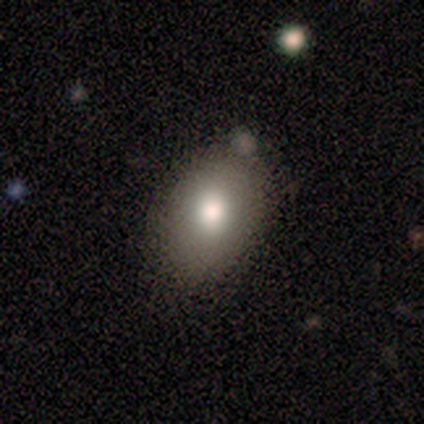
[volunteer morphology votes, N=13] Volunteers were most divided on "merging": none: 83%, minor disturbance: 17%, major disturbance: 0%, merger: 0%. More confident: smooth or featured — smooth (92%); how rounded — in between (92%).